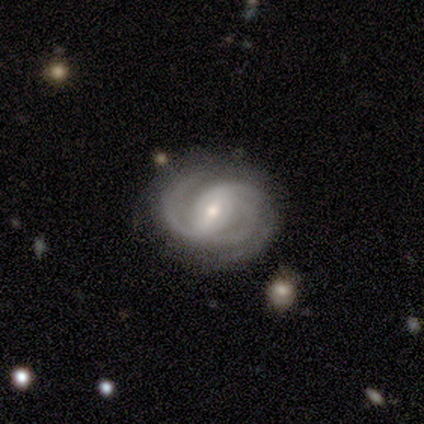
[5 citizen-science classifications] Q: Smooth or featured?
A: featured or disk (100%)
Q: Edge-on disk?
A: no (100%)
Q: Bar?
A: weak (60%); runner-up: strong (40%)
Q: Spiral arms?
A: yes (100%)
Q: Spiral winding?
A: tight (40%); tied with: loose (40%)
Q: Spiral arm count?
A: 2 (40%); tied with: 3 (40%)
Q: Bulge size?
A: small (80%); runner-up: moderate (20%)
Q: Merging?
A: none (60%); runner-up: minor disturbance (20%)